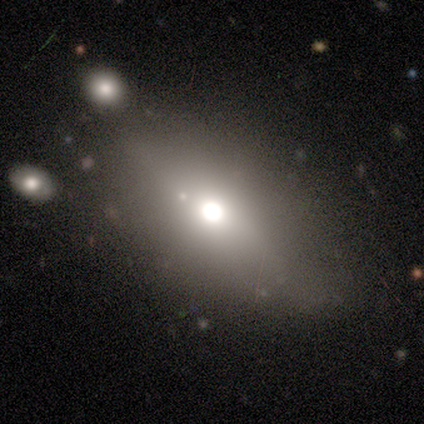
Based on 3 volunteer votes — This appears to be a featured or disk galaxy (67%) viewed edge-on (100%) with a rounded central bulge (100%). Merging: none (100%).